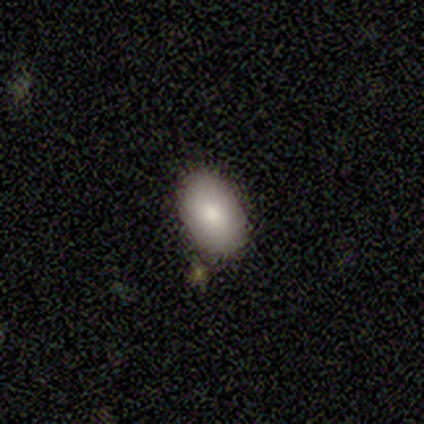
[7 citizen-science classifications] smooth 86%, star or artifact 14%, featured or disk 0%. Down the decision tree: how rounded — in between (67%); merging — none (100%).